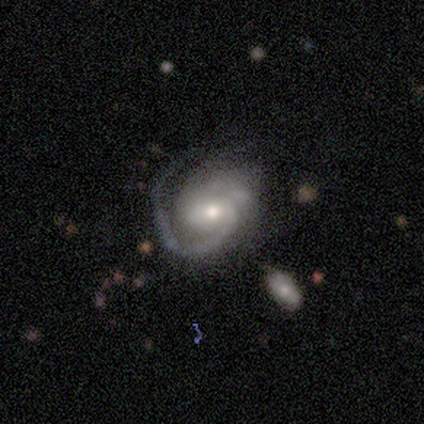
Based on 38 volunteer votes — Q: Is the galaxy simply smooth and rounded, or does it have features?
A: featured or disk — 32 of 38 (84%).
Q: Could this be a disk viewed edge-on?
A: no — 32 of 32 (100%).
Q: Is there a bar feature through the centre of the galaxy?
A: no — 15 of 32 (47%).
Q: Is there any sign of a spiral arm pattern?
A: yes — 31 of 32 (97%).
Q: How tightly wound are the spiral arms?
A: medium — 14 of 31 (45%).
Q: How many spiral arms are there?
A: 1 — 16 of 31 (52%).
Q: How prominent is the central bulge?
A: moderate — 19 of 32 (59%).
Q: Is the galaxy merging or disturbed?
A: none — 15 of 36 (42%).